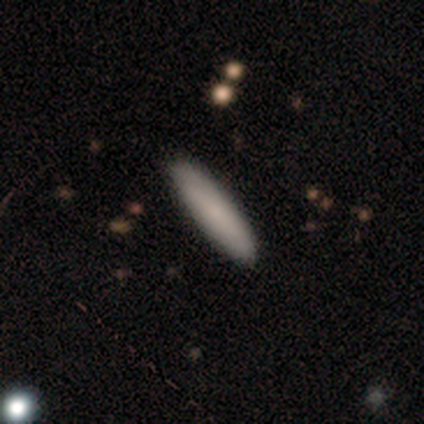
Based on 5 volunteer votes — Q: Smooth or featured?
A: smooth (80%); runner-up: featured or disk (20%)
Q: How rounded?
A: cigar-shaped (100%)
Q: Merging?
A: none (100%)